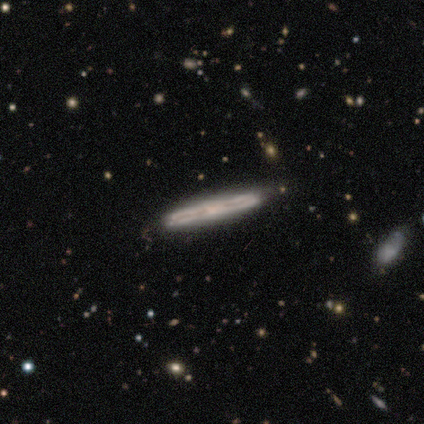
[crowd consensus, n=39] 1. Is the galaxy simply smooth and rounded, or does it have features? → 82% featured or disk, 13% smooth, 5% star or artifact.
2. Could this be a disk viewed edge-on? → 88% yes, 12% no.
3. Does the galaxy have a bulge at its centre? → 68% none, 18% rounded, 14% boxy.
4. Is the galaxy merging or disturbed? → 86% none, 11% minor disturbance, 3% merger, 0% major disturbance.